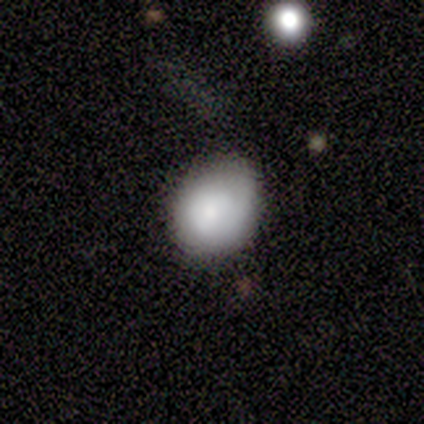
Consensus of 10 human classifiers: Smooth or featured: smooth — 100%
How rounded: in between — 60% (round — 40%)
Merging: none — 50% (tied with minor disturbance — 50%)